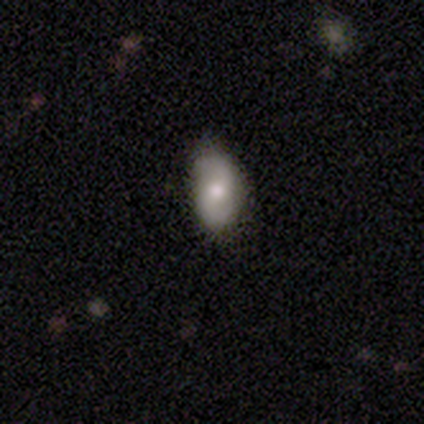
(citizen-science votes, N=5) Smooth or featured? smooth (60%)
How rounded? in between (100%)
Merging? none (80%)